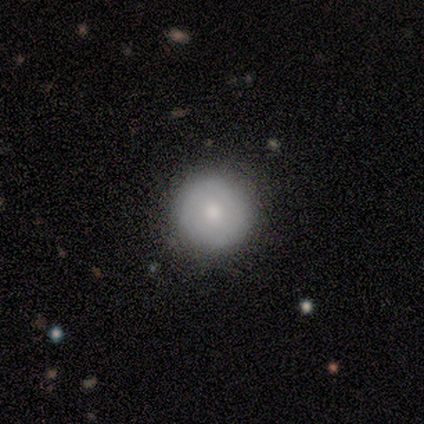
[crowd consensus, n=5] smooth 100%, featured or disk 0%, star or artifact 0%. Down the decision tree: how rounded — round (100%); merging — none (80%).